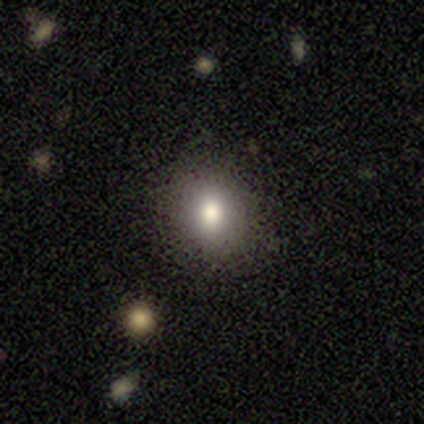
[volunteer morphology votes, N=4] Smooth or featured: smooth — 100%
How rounded: round — 75% (in between — 25%)
Merging: none — 100%